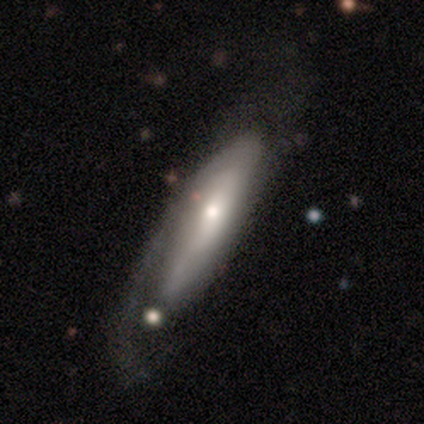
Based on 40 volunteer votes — A featured or disk galaxy (80%) with no bar (61%), 1 (60%) tight (40%) spiral arms (87%) and a moderate central bulge (65%). Merging: none (32%).